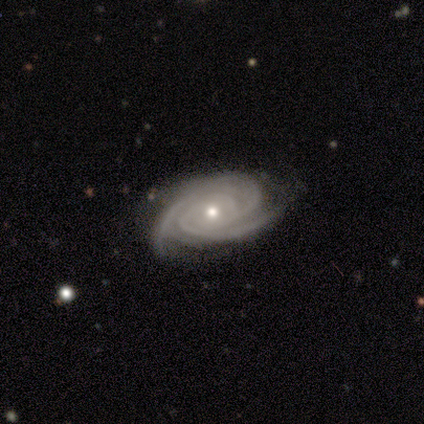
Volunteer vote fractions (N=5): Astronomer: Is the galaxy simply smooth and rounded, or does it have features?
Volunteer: featured or disk — 100%.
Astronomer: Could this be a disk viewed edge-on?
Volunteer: no — 100%.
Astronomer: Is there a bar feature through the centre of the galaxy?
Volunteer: no — 80%.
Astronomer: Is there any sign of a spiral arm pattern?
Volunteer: yes — 100%.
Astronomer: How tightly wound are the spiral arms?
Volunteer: tight — 100%.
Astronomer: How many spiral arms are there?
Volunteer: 3 — 60%.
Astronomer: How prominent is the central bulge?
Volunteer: small — 80%.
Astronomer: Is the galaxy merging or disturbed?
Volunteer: none — 80%.